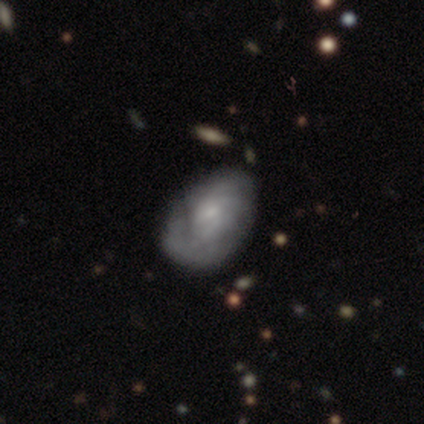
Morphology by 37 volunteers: Overall: featured or disk (49%; smooth 35%). Edge-on disk: no (100%). Bar: no (72%). Spiral arms: yes (72%). Spiral arm count: can't tell (46%; 2 15%). Spiral winding: tight (54%; loose 31%). Bulge size: small (56%; moderate 17%). Merging: none (61%; minor disturbance 32%).